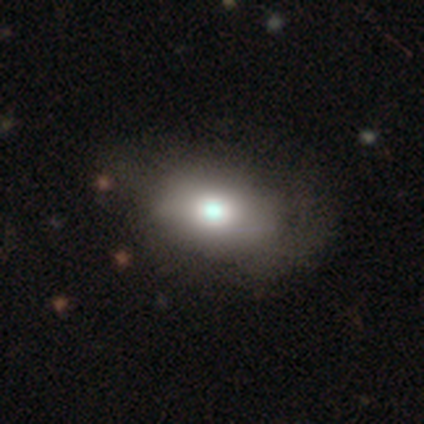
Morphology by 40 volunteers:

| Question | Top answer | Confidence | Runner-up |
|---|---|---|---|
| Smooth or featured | smooth | 72% | featured or disk (20%) |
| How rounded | in between | 86% | round (14%) |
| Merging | none | 43% | minor disturbance (19%) |